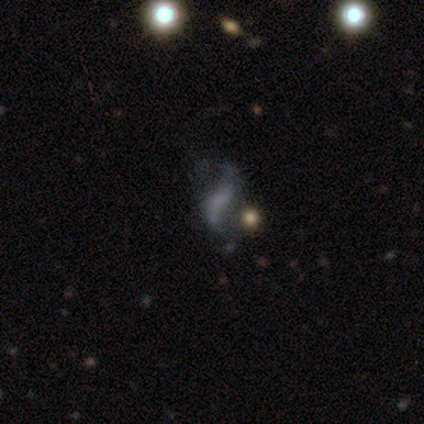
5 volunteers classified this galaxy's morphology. A featured or disk galaxy (60%) with a weak bar (50%, tied with no), 2 (100%) loose (100%) spiral arms (50%, tied with no) and no central bulge (100%).

Vote fractions:
- Smooth or featured? featured or disk: 60% / smooth: 20% / star or artifact: 20%
- Edge-on disk? no: 67% / yes: 33%
- Bar? weak: 50% (tied) / no: 50% (tied) / strong: 0%
- Spiral arms? yes: 50% (tied) / no: 50% (tied)
- Spiral winding? loose: 100% / tight: 0% / medium: 0%
- Spiral arm count? 2: 100% / 1: 0% / 3: 0% / 4: 0% / more than 4: 0% / can't tell: 0%
- Bulge size? none: 100% / dominant: 0% / large: 0% / moderate: 0% / small: 0%
- Merging? none: 50% / minor disturbance: 25% / merger: 25% / major disturbance: 0%